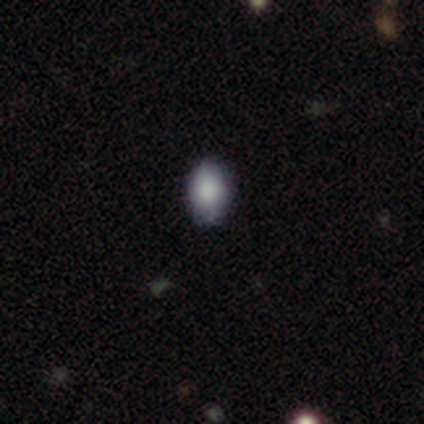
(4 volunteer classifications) Smooth or featured? 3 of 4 (75%) said smooth. How rounded? 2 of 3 (67%) said in between. Merging? 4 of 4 (100%) said none.